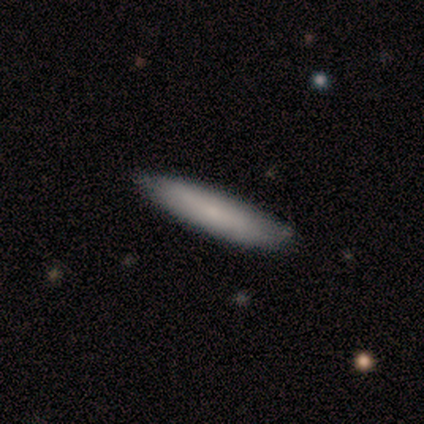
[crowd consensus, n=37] This appears to be a smooth galaxy with no disk features (62%) that is cigar-shaped (78%). Merging: none (86%).